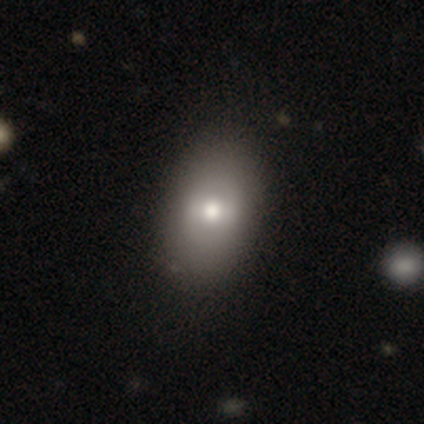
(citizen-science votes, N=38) Smooth or featured: smooth — 53% (featured or disk — 42%)
How rounded: in between — 80% (round — 20%)
Merging: none — 64% (merger — 6%)